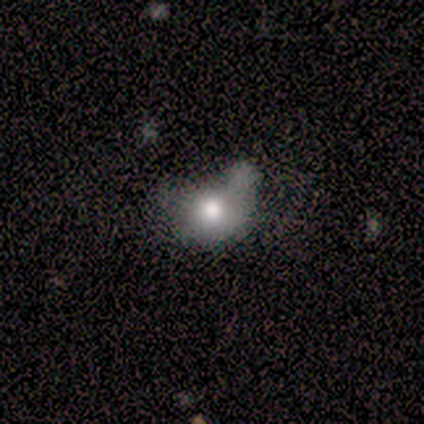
This is clearly a smooth galaxy (80%). How rounded: possibly round (50%, tied with in between). Merging: possibly minor disturbance (50%).